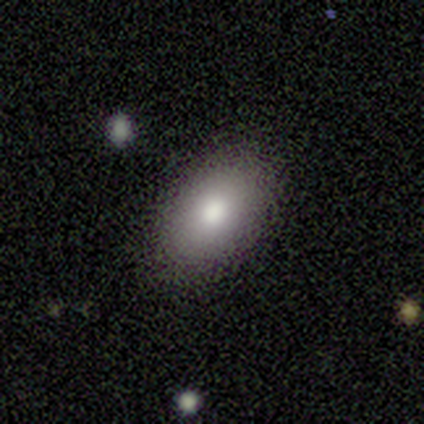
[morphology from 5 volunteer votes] smooth-or-featured: smooth: 80% | featured or disk: 20% | star or artifact: 0%
  how-rounded: in between: 100% | round: 0% | cigar-shaped: 0%
  merging: none: 100% | minor disturbance: 0% | major disturbance: 0% | merger: 0%